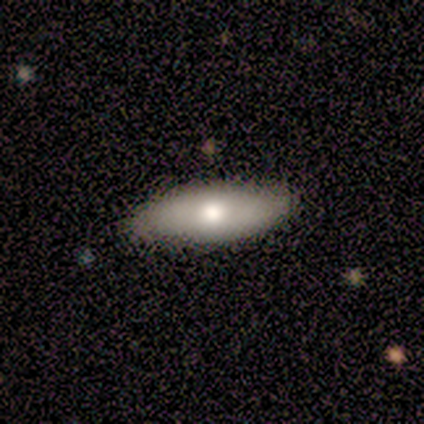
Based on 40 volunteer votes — Smooth or featured?
  - smooth: 68% *
  - featured or disk: 28%
  - star or artifact: 5%
How rounded?
  - in between: 70% *
  - cigar-shaped: 30%
  - round: 0%
Merging?
  - none: 87% *
  - minor disturbance: 13%
  - major disturbance: 0%
  - merger: 0%